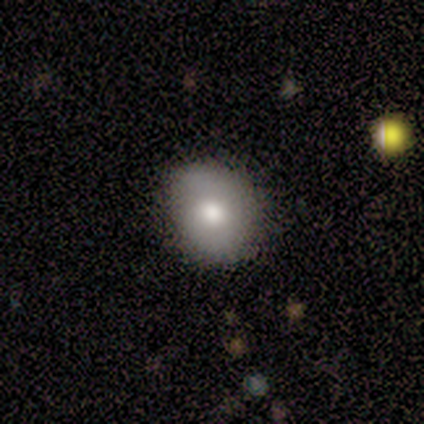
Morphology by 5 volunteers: A smooth galaxy with no disk features (80%) that is round (75%).

Vote fractions:
- Smooth or featured? smooth: 80% / featured or disk: 20% / star or artifact: 0%
- How rounded? round: 75% / in between: 25% / cigar-shaped: 0%
- Merging? none: 80% / major disturbance: 20% / minor disturbance: 0% / merger: 0%